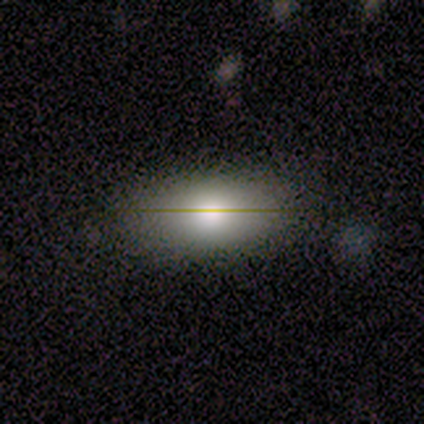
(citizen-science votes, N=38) A smooth galaxy with no disk features (47%) that is in between round and cigar-shaped (89%). Merging: none (94%).